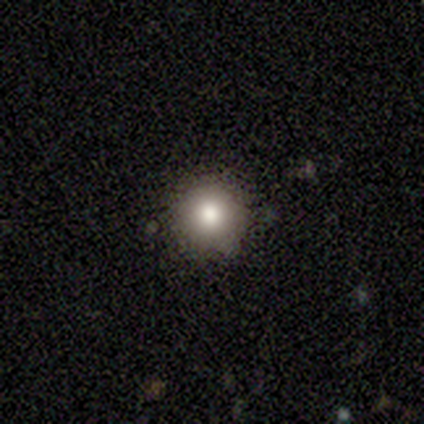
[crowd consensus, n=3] A smooth galaxy with no disk features (67%) that is round (100%). Merging: none (100%).